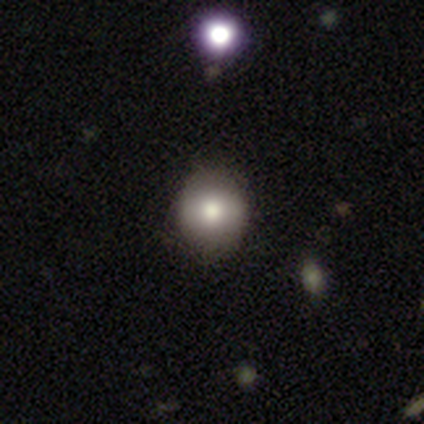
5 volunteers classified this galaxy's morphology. Smooth or featured?
  - smooth: 80% *
  - featured or disk: 20%
  - star or artifact: 0%
How rounded?
  - round: 75% *
  - in between: 25%
  - cigar-shaped: 0%
Merging?
  - none: 80% *
  - minor disturbance: 20%
  - major disturbance: 0%
  - merger: 0%